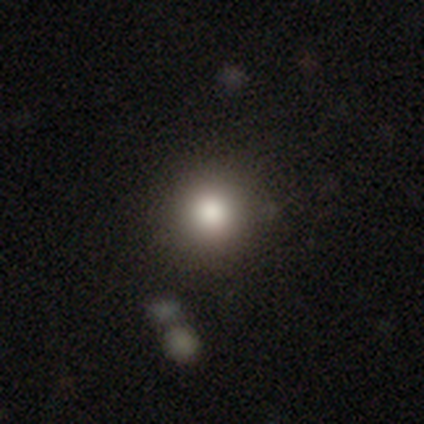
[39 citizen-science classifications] Morphology: type=smooth (87%); roundness=round (94%); merging=none (64%).